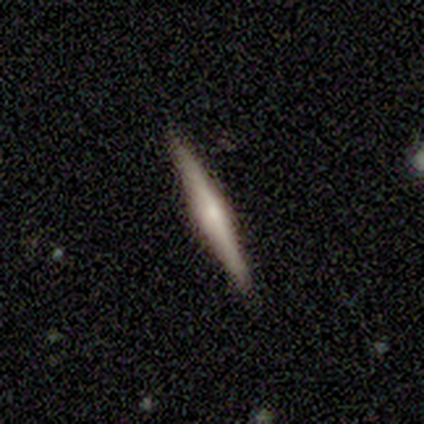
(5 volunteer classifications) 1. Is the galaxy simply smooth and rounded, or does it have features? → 60% smooth, 40% featured or disk, 0% star or artifact.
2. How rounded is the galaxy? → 100% cigar-shaped, 0% round, 0% in between.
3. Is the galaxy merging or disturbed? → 80% none, 20% minor disturbance, 0% major disturbance, 0% merger.